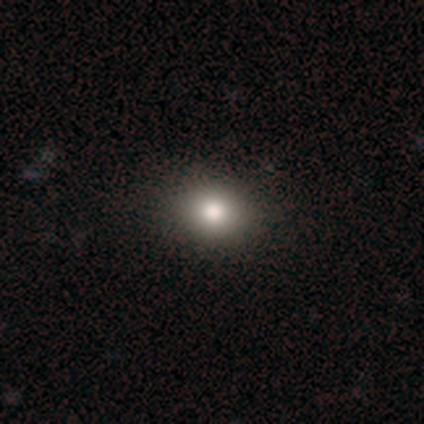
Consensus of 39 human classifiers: Volunteers were most divided on "how rounded": round: 63%, in between: 37%, cigar-shaped: 0%. More confident: smooth or featured — smooth (90%); merging — none (80%).